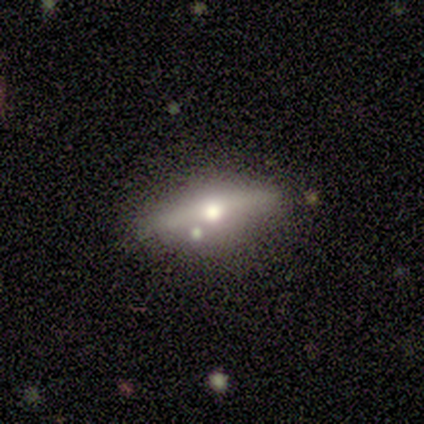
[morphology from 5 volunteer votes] featured or disk 60%, star or artifact 40%, smooth 0%. Down the decision tree: edge-on disk — yes (100%); edge-on bulge — rounded (100%); merging — none (100%).